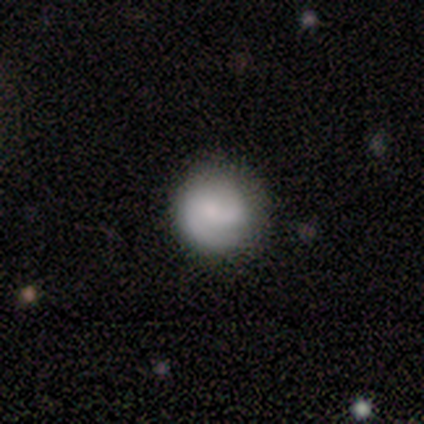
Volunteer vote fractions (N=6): Morphology: type=smooth (100%); roundness=round (100%); merging=none (83%).